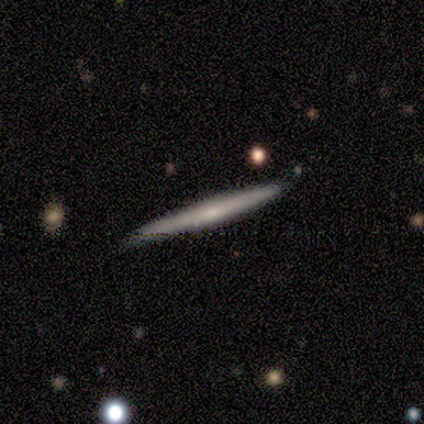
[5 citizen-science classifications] featured or disk 60%, smooth 40%, star or artifact 0%. Down the decision tree: edge-on disk — yes (100%); edge-on bulge — rounded (67%); merging — none (80%).